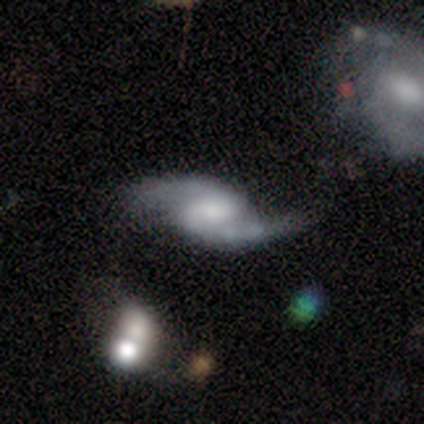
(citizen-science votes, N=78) This appears to be a featured or disk galaxy (88%) with a weak bar (50%), 2 (100%) loose (53%) spiral arms (94%) and a moderate central bulge (41%). Merging: none (34%).